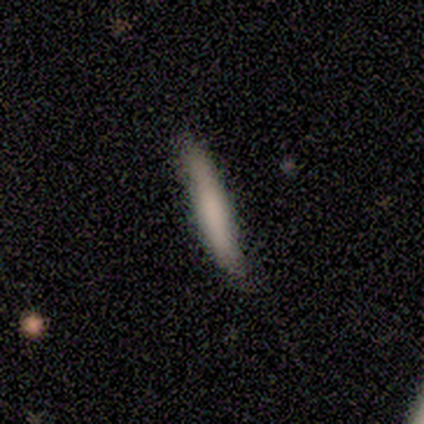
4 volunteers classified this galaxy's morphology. A smooth galaxy with no disk features (100%) that is cigar-shaped (100%).

Vote fractions:
- Smooth or featured? smooth: 100% / featured or disk: 0% / star or artifact: 0%
- How rounded? cigar-shaped: 100% / round: 0% / in between: 0%
- Merging? none: 100% / minor disturbance: 0% / major disturbance: 0% / merger: 0%